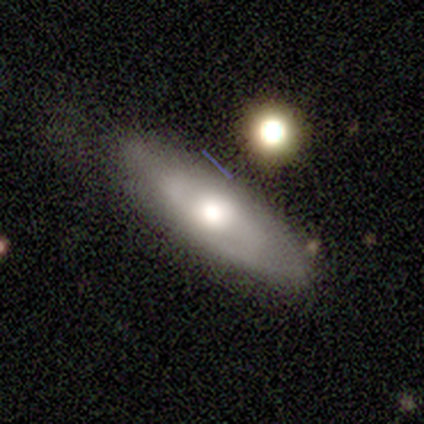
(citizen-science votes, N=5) Morphology: type=featured or disk (60%); edge-on=no (67%); bar=weak (50%, tied with no); spiral arms=yes (50%, tied with no); winding=medium (100%); arm count=2 (100%); bulge=moderate (50%, tied with small); merging=none (50%).